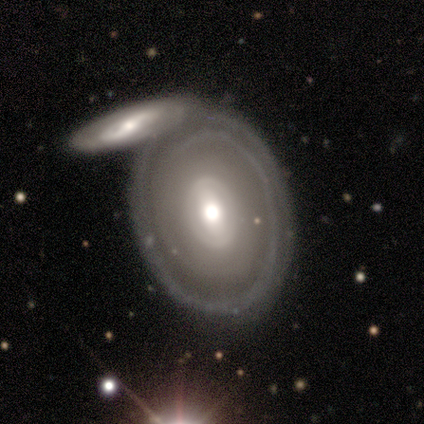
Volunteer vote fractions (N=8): Smooth or featured: featured or disk — 88% (smooth — 12%)
Edge-on disk: no — 100%
Bar: no — 43% (strong — 29%)
Spiral arms: yes — 57% (no — 43%)
Spiral winding: tight — 75% (loose — 25%)
Spiral arm count: can't tell — 75% (3 — 25%)
Bulge size: moderate — 43% (small — 29%)
Merging: none — 62% (merger — 25%)